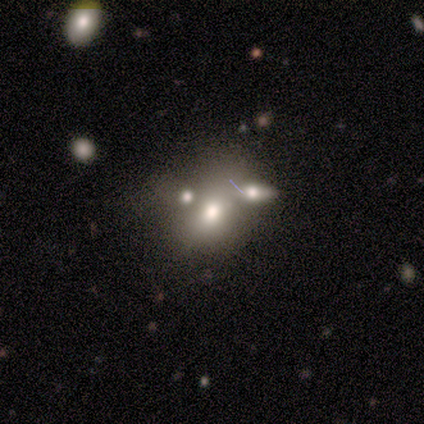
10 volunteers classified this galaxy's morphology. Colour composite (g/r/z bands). It shows a smooth galaxy with no disk features (60%) that is in between round and cigar-shaped (83%). Merging: merger (62%).